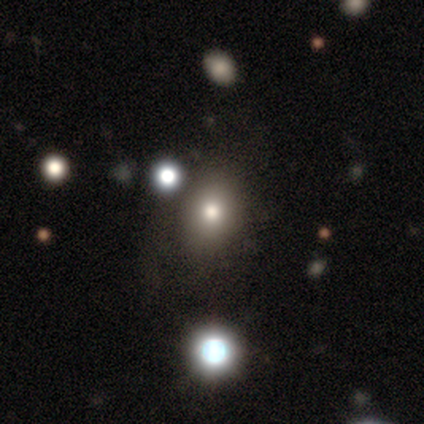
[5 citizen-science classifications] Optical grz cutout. It shows a smooth galaxy with no disk features (80%) that is round (50%, tied with in between). Merging: none (75%).